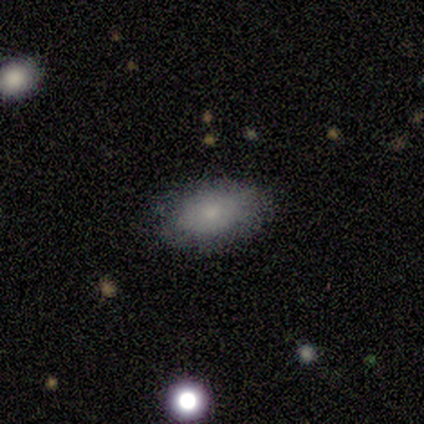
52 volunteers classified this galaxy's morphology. This is likely a smooth galaxy (71%). How rounded: clearly in between (97%). Merging: likely none (76%).